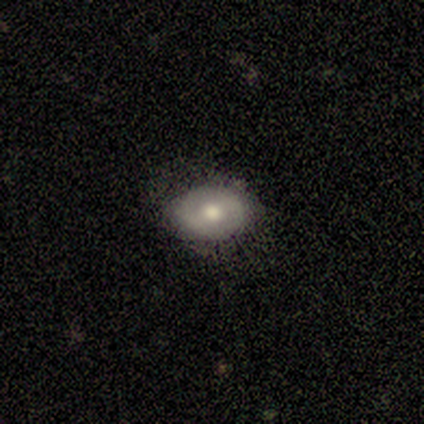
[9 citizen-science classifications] Morphology: type=smooth (67%); roundness=in between (83%); merging=none (89%).